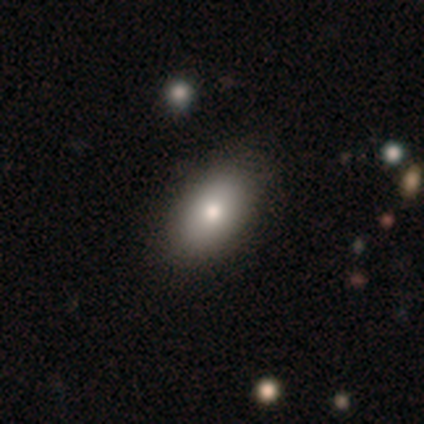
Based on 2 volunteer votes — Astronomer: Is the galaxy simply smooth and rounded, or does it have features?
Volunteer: smooth — 100%.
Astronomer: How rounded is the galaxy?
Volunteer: in between — 100%.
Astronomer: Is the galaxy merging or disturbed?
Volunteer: none — 50%, tied with minor disturbance at 50%.